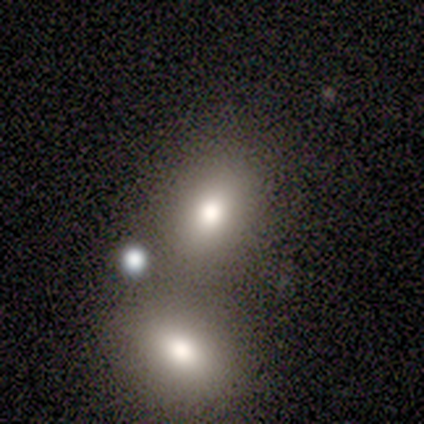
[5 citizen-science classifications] Q: Smooth or featured?
A: smooth (80%); runner-up: featured or disk (20%)
Q: How rounded?
A: in between (100%)
Q: Merging?
A: none (80%); runner-up: minor disturbance (20%)